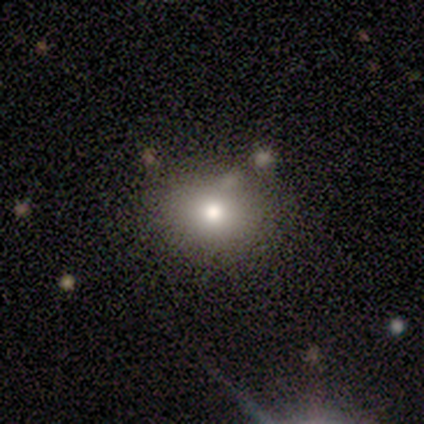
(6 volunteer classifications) Morphology: type=smooth (83%); roundness=round (80%); merging=none (80%).